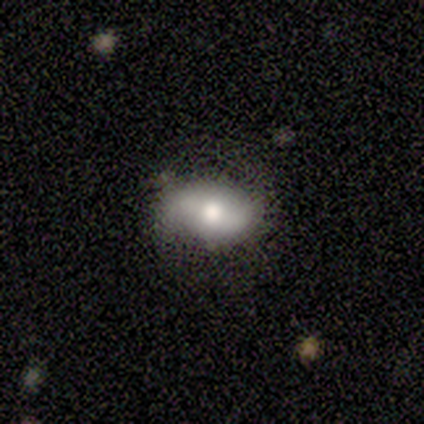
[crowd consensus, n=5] Smooth or featured? featured or disk (60%)
Edge-on disk? no (100%)
Bar? strong (33%, tied with weak and no)
Spiral arms? yes (100%)
Spiral winding? loose (100%)
Spiral arm count? 2 (100%)
Bulge size? moderate (67%)
Merging? none (80%)